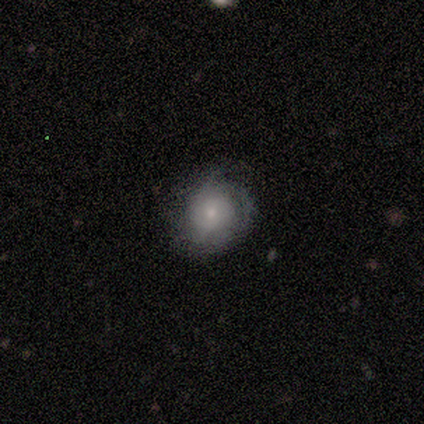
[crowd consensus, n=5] Smooth or featured?
  - featured or disk: 80% *
  - smooth: 20%
  - star or artifact: 0%
Edge-on disk?
  - no: 100% *
  - yes: 0%
Bar?
  - no: 100% *
  - strong: 0%
  - weak: 0%
Spiral arms?
  - yes: 100% *
  - no: 0%
Spiral winding?
  - tight: 75% *
  - loose: 25%
  - medium: 0%
Spiral arm count?
  - can't tell: 75% *
  - 1: 25%
  - 2: 0%
  - 3: 0%
  - 4: 0%
  - more than 4: 0%
Bulge size?
  - small: 50% *
  - large: 25%
  - moderate: 25%
  - dominant: 0%
  - none: 0%
Merging?
  - minor disturbance: 60% *
  - none: 40%
  - major disturbance: 0%
  - merger: 0%